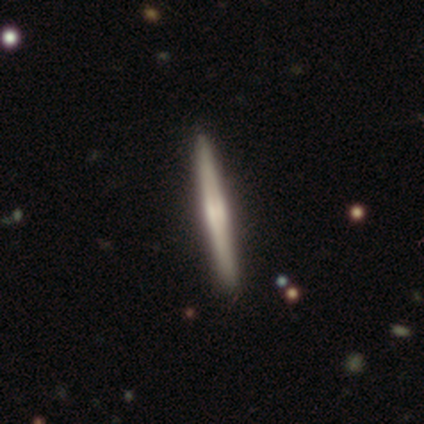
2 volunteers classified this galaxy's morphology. This is clearly a featured or disk galaxy (100%). It is possibly viewed edge-on (50%, tied with no). Edge-on bulge: clearly rounded (100%). Merging: possibly none (50%, tied with minor disturbance).